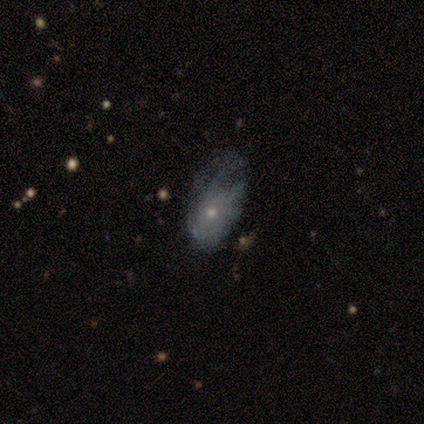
This appears to be a smooth galaxy with no disk features (50%, tied with featured or disk) that is in between round and cigar-shaped (100%). Merging: minor disturbance (62%).